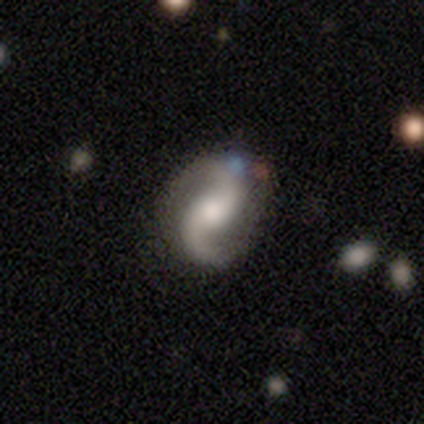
featured or disk 83%, smooth 14%, star or artifact 2%. Down the decision tree: edge-on disk — no (100%); bar — no (49%); spiral arms — yes (97%); spiral arm count — 2 (100%); spiral winding — loose (53%); bulge size — moderate (57%); merging — none (73%).